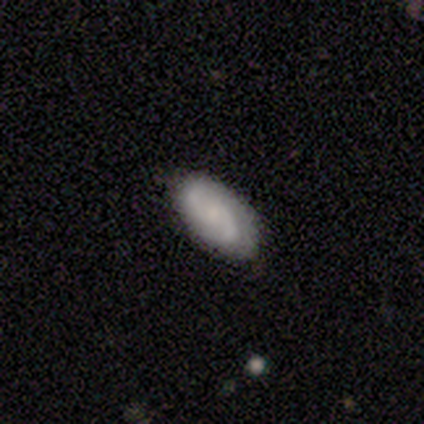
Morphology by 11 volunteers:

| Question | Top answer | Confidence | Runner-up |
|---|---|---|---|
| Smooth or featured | smooth | 64% | featured or disk (36%) |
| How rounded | in between | 100% | — |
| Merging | none | 82% | minor disturbance (18%) |